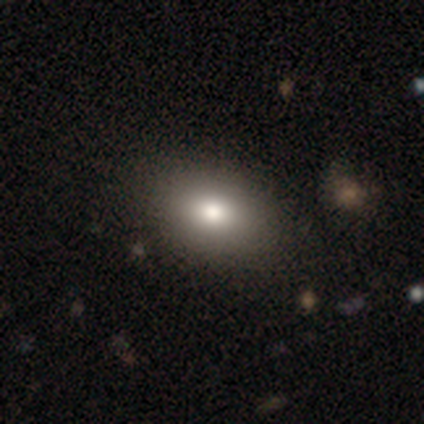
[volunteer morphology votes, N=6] smooth-or-featured: smooth: 83% | featured or disk: 17% | star or artifact: 0%
  how-rounded: in between: 100% | round: 0% | cigar-shaped: 0%
  merging: none: 100% | minor disturbance: 0% | major disturbance: 0% | merger: 0%